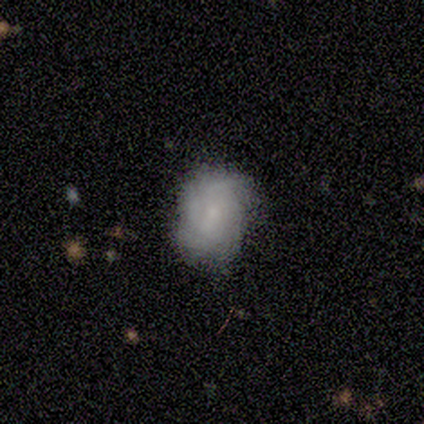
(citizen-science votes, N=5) Overall: smooth (60%; featured or disk 40%). How rounded: in between (100%). Merging: none (80%).